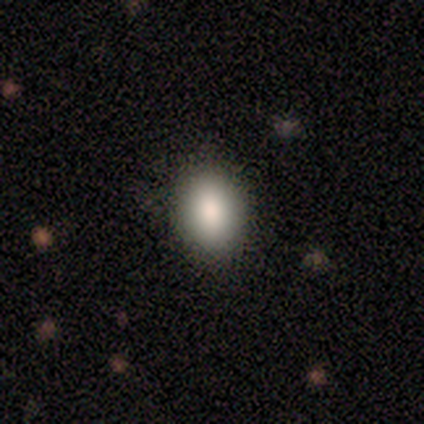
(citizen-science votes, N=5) This appears to be a smooth galaxy with no disk features (100%) that is in between round and cigar-shaped (100%). Merging: none (80%).